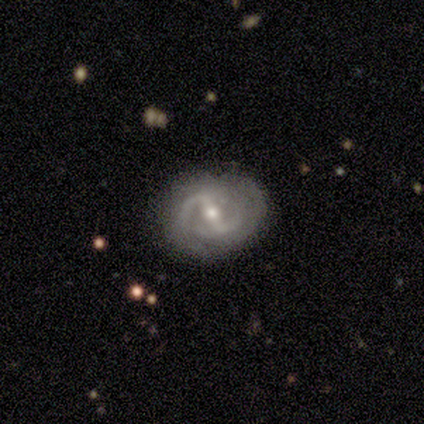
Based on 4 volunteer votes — This is likely a featured or disk galaxy (75%). It is clearly not viewed edge-on (100%). Bar: marginally strong (33%, tied with weak and no). Spiral arm pattern: likely yes (67%). Spiral arm count: clearly 2 (100%). Spiral winding: possibly medium (50%, tied with loose). Central bulge: likely small (67%). Merging: clearly none (100%).